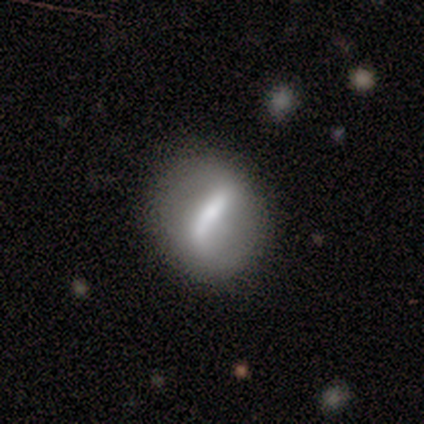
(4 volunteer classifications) A featured or disk galaxy (50%) with a strong bar (100%), no spiral arms (100%) and a large central bulge (50%, tied with small). Merging: none (100%).